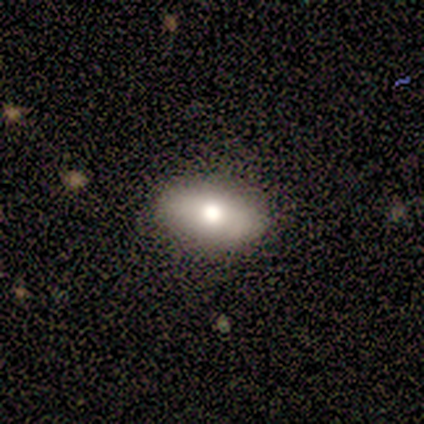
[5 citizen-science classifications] Q: Smooth or featured?
A: featured or disk (80%); runner-up: smooth (20%)
Q: Edge-on disk?
A: yes (50%); tied with: no (50%)
Q: Edge-on bulge?
A: rounded (100%)
Q: Merging?
A: none (100%)